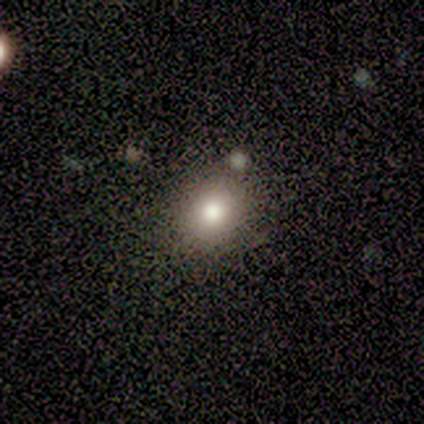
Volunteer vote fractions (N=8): A smooth galaxy with no disk features (62%) that is round (60%). Merging: none (71%).